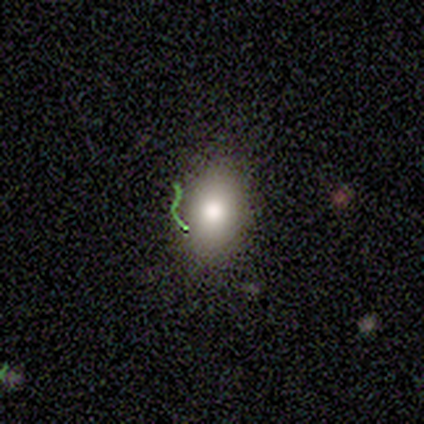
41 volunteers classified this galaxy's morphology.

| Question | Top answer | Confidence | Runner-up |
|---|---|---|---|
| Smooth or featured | smooth | 68% | featured or disk (20%) |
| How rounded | in between | 61% | round (39%) |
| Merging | none | 83% | minor disturbance (11%) |